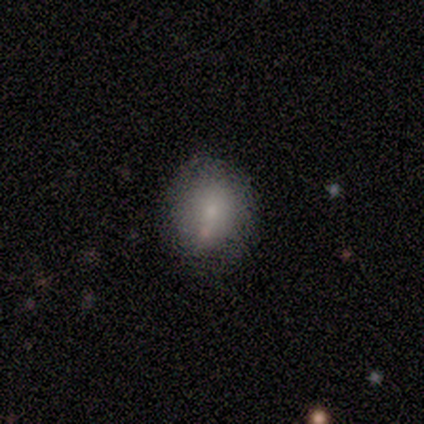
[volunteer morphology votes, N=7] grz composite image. It shows a smooth galaxy with no disk features (100%) that is round (86%). Merging: none (71%).